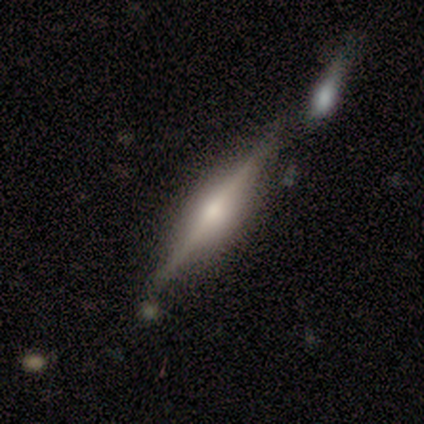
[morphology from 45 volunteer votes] smooth-or-featured: featured or disk: 84% | smooth: 9% | star or artifact: 7%
  disk-edge-on: yes: 100% | no: 0%
    edge-on-bulge: rounded: 82% | boxy: 16% | none: 3%
  merging: none: 64% | minor disturbance: 21% | merger: 14% | major disturbance: 0%